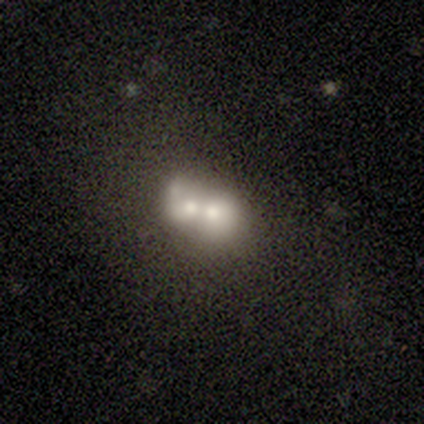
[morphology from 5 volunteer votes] smooth-or-featured: featured or disk: 60% | smooth: 20% | star or artifact: 20%
  disk-edge-on: no: 100% | yes: 0%
    bar: no: 100% | strong: 0% | weak: 0%
    has-spiral-arms: no: 100% | yes: 0%
    bulge-size: moderate: 100% | dominant: 0% | large: 0% | small: 0% | none: 0%
  merging: merger: 100% | none: 0% | minor disturbance: 0% | major disturbance: 0%